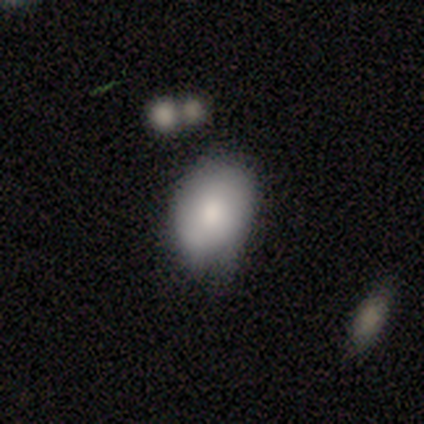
Smooth or featured?
  - smooth: 100% *
  - featured or disk: 0%
  - star or artifact: 0%
How rounded?
  - in between: 100% *
  - round: 0%
  - cigar-shaped: 0%
Merging?
  - minor disturbance: 50% *
  - none: 25%
  - merger: 25%
  - major disturbance: 0%